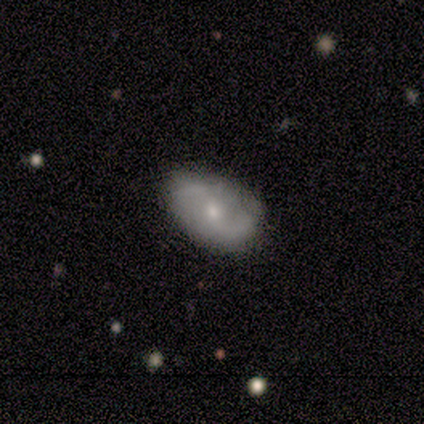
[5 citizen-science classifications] Smooth or featured: featured or disk — 80% (smooth — 20%)
Edge-on disk: no — 100%
Bar: no — 75% (weak — 25%)
Spiral arms: yes — 100%
Spiral winding: medium — 50% (tied with loose — 50%)
Spiral arm count: 2 — 75% (can't tell — 25%)
Bulge size: small — 75% (moderate — 25%)
Merging: none — 60% (minor disturbance — 40%)